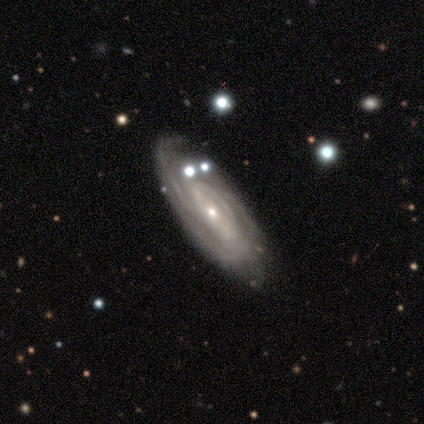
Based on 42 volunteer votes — Volunteers were most divided on "spiral arm count": can't tell: 53%, 2: 22%, 3: 16%, more than 4: 6%, 1: 3%, 4: 0%. More confident: edge-on disk — no (95%); spiral arms — yes (91%); smooth or featured — featured or disk (88%); bulge size — small (74%); spiral winding — tight (69%); merging — none (67%); bar — no (57%).